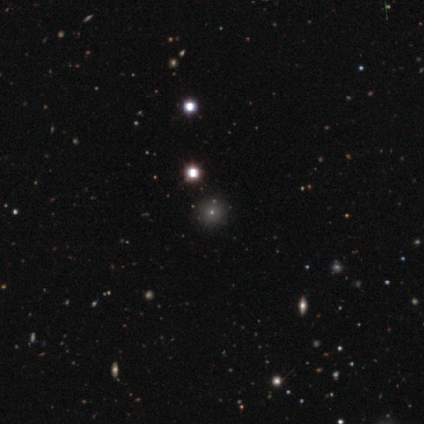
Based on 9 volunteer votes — Q: Smooth or featured?
A: smooth (67%); runner-up: star or artifact (33%)
Q: How rounded?
A: round (100%)
Q: Merging?
A: none (67%); runner-up: minor disturbance (33%)